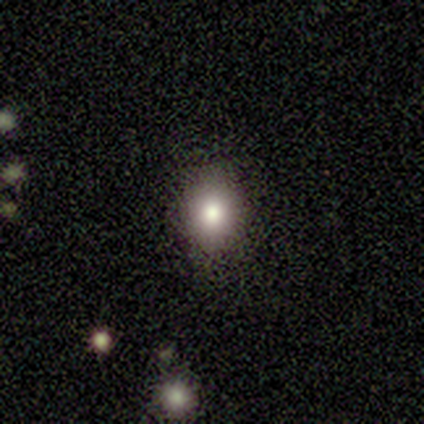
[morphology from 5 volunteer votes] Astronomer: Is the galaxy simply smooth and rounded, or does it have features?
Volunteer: smooth — 60%.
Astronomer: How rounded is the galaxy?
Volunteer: round — 67%.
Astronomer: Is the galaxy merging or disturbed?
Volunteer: none — 100%.